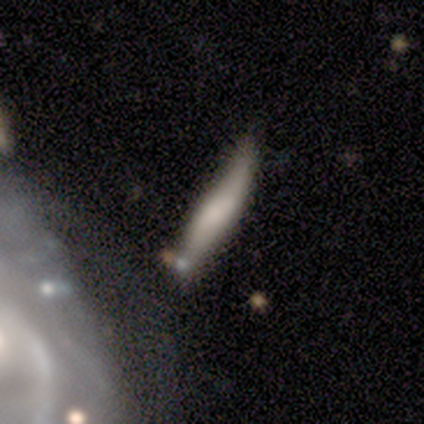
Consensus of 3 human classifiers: Q: Smooth or featured?
A: smooth (100%)
Q: How rounded?
A: cigar-shaped (100%)
Q: Merging?
A: none (67%); runner-up: minor disturbance (33%)